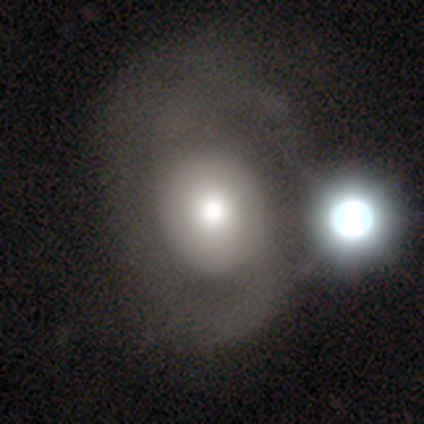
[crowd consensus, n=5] This is likely a featured or disk galaxy (60%). It is clearly not viewed edge-on (100%). Bar: likely no (67%). Spiral arm pattern: clearly yes (100%). Spiral arm count: likely 2 (67%). Spiral winding: likely loose (67%). Central bulge: likely moderate (67%). Merging: marginally none (40%, tied with major disturbance).